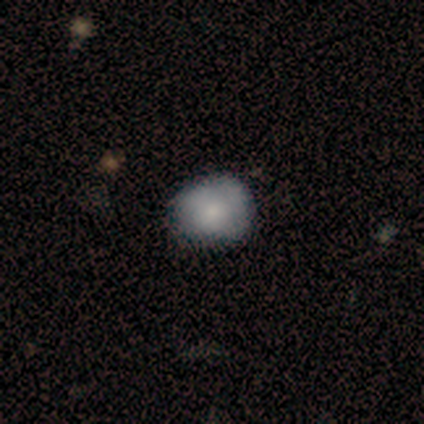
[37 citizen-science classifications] Morphology: type=smooth (78%); roundness=round (72%); merging=none (72%).